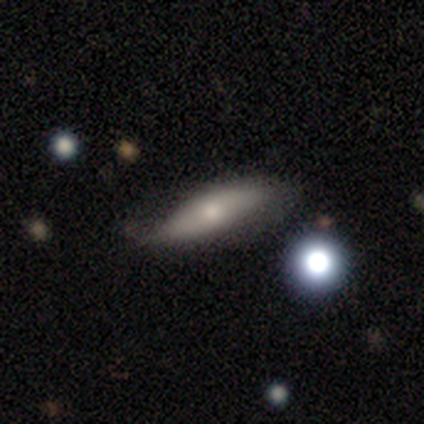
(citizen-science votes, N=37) This is likely a smooth galaxy (65%). How rounded: likely cigar-shaped (71%). Merging: possibly none (50%).